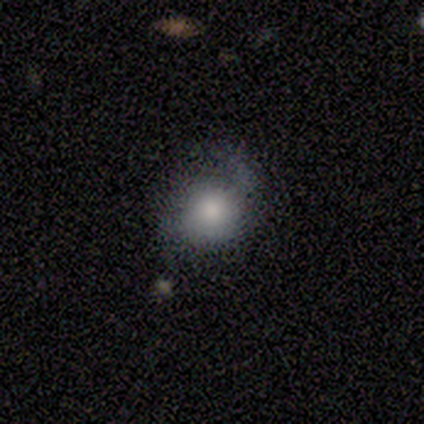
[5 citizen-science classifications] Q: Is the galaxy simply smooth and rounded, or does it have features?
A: smooth — 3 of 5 (60%).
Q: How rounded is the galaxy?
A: round — 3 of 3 (100%).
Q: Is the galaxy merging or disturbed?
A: none — 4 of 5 (80%).